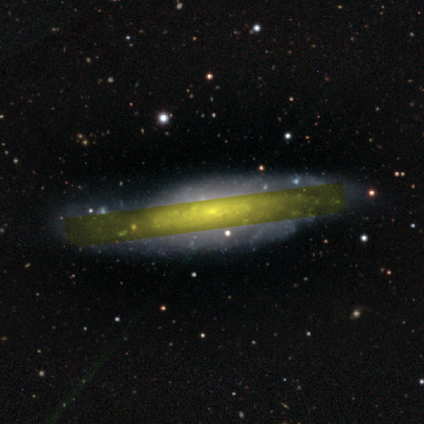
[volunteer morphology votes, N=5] A featured or disk galaxy (80%) viewed edge-on (50%, tied with no) with a boxy central bulge (50%, tied with none). Merging: none (60%).